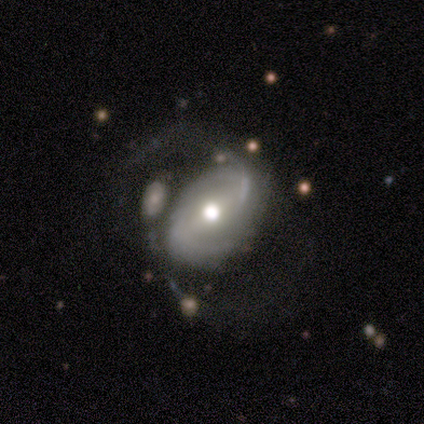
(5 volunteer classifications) Morphology: type=featured or disk (60%); edge-on=no (100%); bar=weak (67%); spiral arms=yes (100%); winding=loose (67%); arm count=2 (67%); bulge=moderate (67%); merging=minor disturbance (60%).